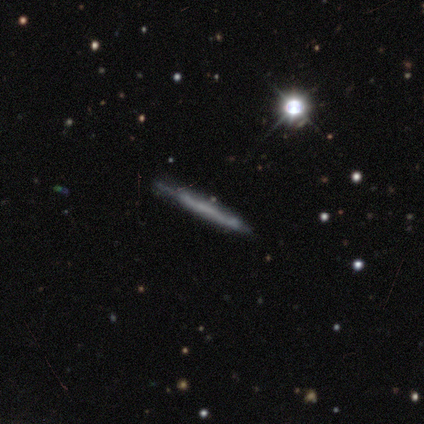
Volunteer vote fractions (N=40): Smooth or featured? featured or disk (57%)
Edge-on disk? yes (100%)
Edge-on bulge? none (83%)
Merging? none (72%)